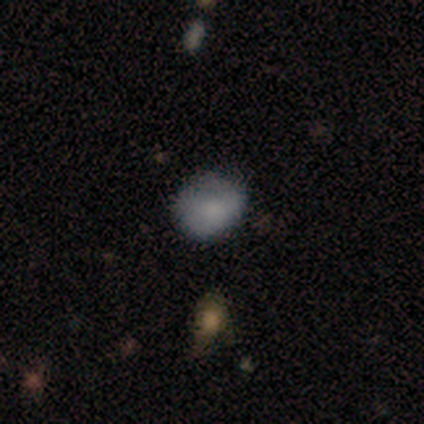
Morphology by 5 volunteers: Q: Smooth or featured?
A: smooth (60%); runner-up: featured or disk (40%)
Q: How rounded?
A: round (67%); runner-up: in between (33%)
Q: Merging?
A: none (60%); runner-up: minor disturbance (40%)